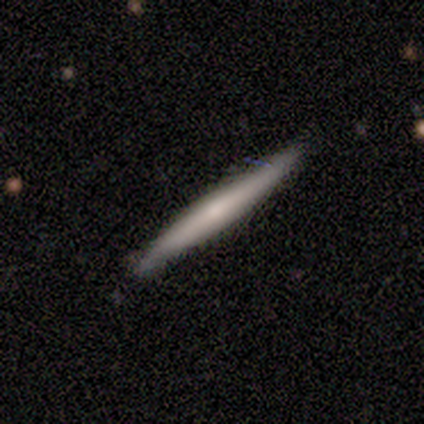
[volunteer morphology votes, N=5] Volunteers were most divided on "smooth or featured": smooth: 60%, featured or disk: 40%, star or artifact: 0%. More confident: how rounded — cigar-shaped (100%); merging — none (100%).